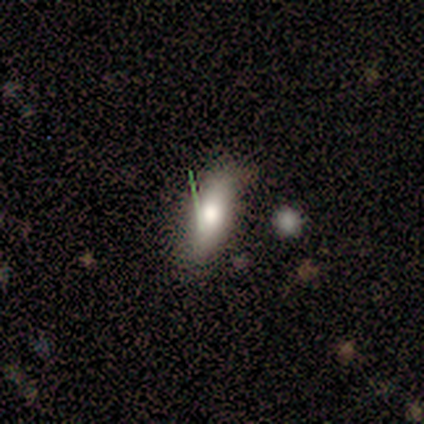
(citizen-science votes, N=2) Overall: smooth (50%, tied with featured or disk). How rounded: cigar-shaped (100%). Merging: none (50%, tied with major disturbance).